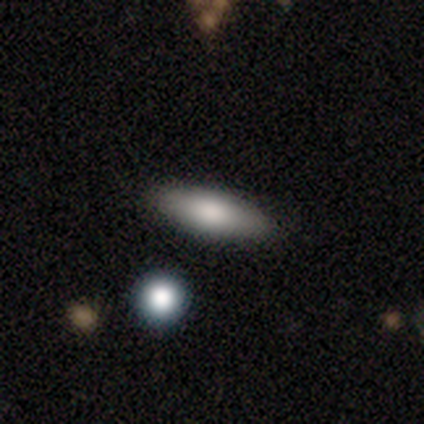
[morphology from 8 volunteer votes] Smooth or featured? smooth (75%)
How rounded? in between (83%)
Merging? none (100%)